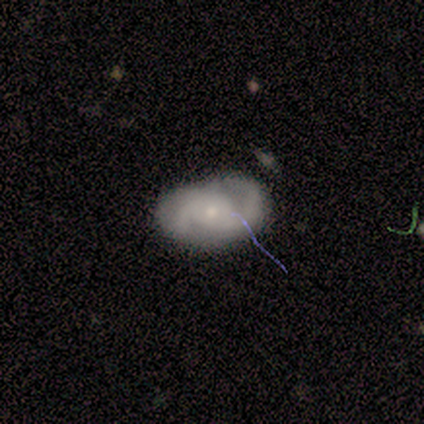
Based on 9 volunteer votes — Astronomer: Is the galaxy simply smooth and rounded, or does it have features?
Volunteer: featured or disk — 67%.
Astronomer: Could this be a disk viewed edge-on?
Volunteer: no — 67%.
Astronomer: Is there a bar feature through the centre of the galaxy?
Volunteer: no — 100%.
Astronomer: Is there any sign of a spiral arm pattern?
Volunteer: yes — 100%.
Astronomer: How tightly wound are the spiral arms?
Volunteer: medium — 50%.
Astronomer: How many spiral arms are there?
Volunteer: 2 — 75%.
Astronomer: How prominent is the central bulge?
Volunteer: small — 100%.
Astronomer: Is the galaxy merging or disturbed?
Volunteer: none — 67%.